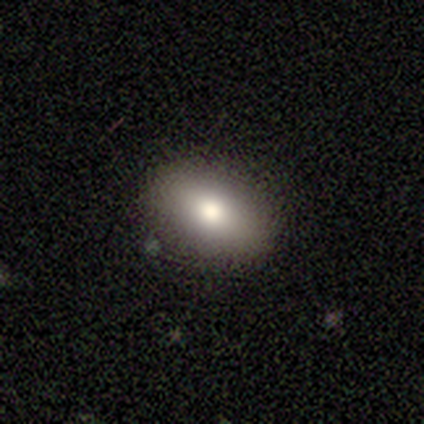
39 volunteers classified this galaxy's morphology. type=smooth (85%); roundness=in between (91%); merging=none (94%).